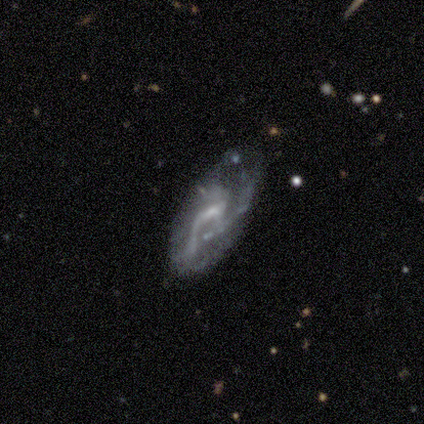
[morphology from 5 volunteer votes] Smooth or featured? 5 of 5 (100%) said featured or disk. Edge-on disk? 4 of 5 (80%) said no. Bar? 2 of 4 (50%, tied with no) said weak. Spiral arms? 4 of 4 (100%) said yes. Spiral winding? 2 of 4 (50%) said tight. Spiral arm count? 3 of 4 (75%) said can't tell. Bulge size? 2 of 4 (50%) said none. Merging? 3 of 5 (60%) said major disturbance.